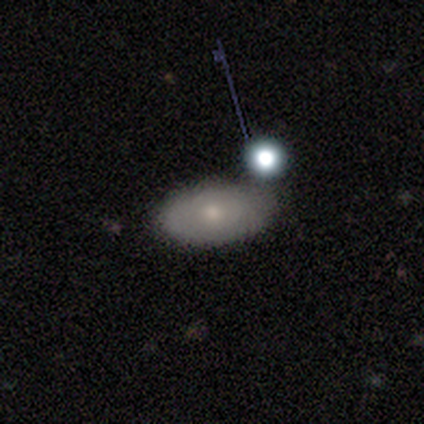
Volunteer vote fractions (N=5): Overall: smooth (60%; featured or disk 40%). How rounded: in between (100%). Merging: none (80%).